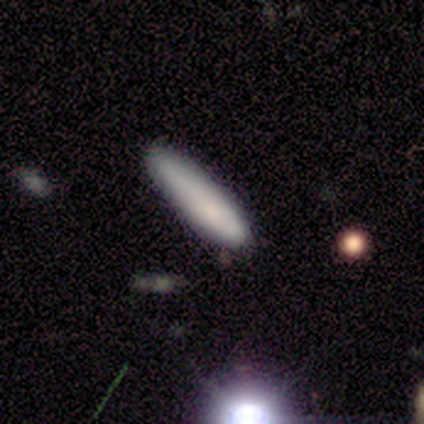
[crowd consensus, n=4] Smooth or featured? smooth (75%)
How rounded? cigar-shaped (100%)
Merging? none (67%)